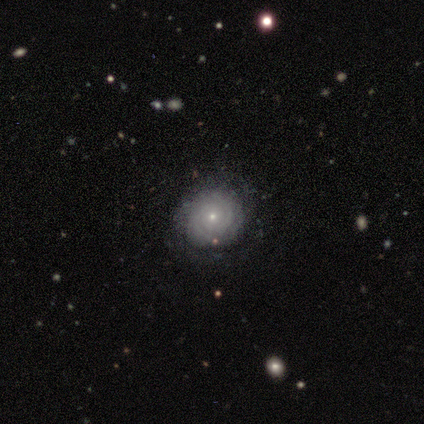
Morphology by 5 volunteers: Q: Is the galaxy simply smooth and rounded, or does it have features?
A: featured or disk — 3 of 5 (60%).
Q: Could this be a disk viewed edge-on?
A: no — 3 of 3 (100%).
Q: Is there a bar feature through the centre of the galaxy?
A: no — 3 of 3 (100%).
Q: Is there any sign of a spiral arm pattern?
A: yes — 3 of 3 (100%).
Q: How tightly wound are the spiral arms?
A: tight — 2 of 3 (67%).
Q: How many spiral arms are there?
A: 2 — 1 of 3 (33%, tied with 4 and can't tell).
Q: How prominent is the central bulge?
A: small — 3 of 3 (100%).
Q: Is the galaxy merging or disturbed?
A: none — 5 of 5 (100%).